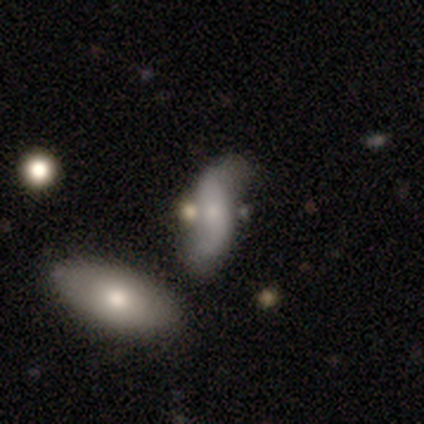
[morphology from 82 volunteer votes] Smooth or featured? 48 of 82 (59%) said featured or disk. Edge-on disk? 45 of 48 (94%) said no. Bar? 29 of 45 (64%) said no. Spiral arms? 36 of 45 (80%) said yes. Spiral winding? 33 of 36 (92%) said loose. Spiral arm count? 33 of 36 (92%) said 2. Bulge size? 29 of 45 (64%) said small. Merging? 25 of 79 (32%) said merger.